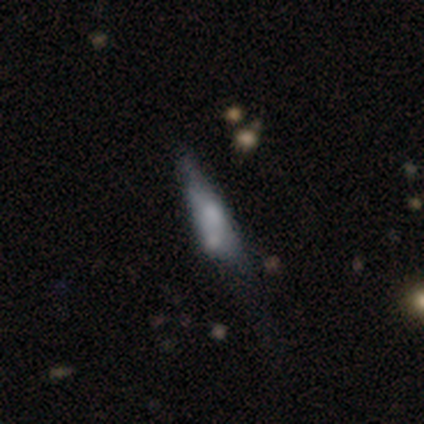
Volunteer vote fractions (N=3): A smooth galaxy with no disk features (67%) that is in between round and cigar-shaped (100%). Merging: none (33%, tied with minor disturbance and major disturbance).